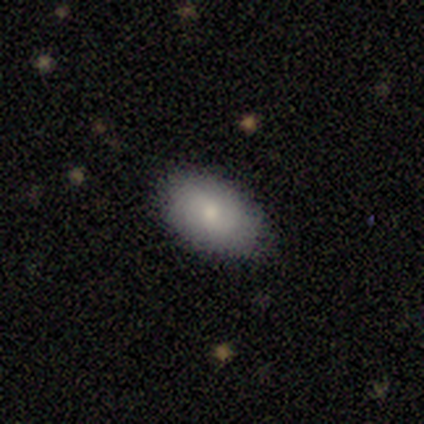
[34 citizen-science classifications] Smooth or featured? smooth (74%)
How rounded? in between (96%)
Merging? none (88%)